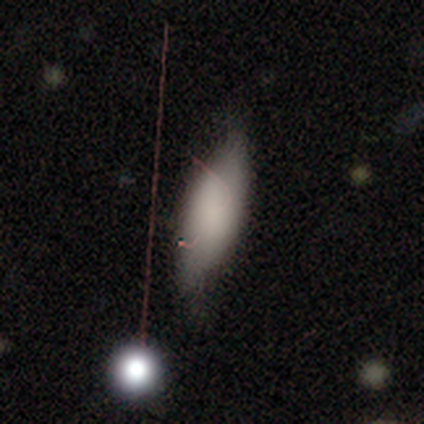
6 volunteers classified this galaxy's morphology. Overall: smooth (83%). How rounded: in between (80%). Merging: minor disturbance (50%; none 33%).